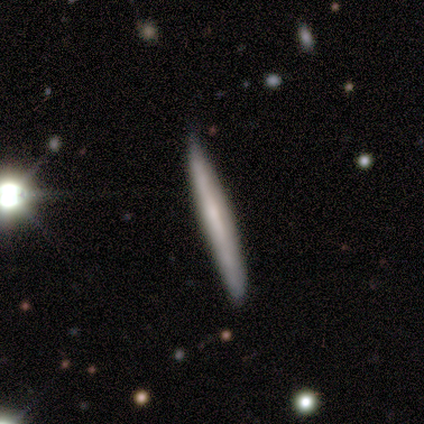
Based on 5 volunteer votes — A smooth galaxy with no disk features (60%) that is cigar-shaped (100%). Merging: none (60%).